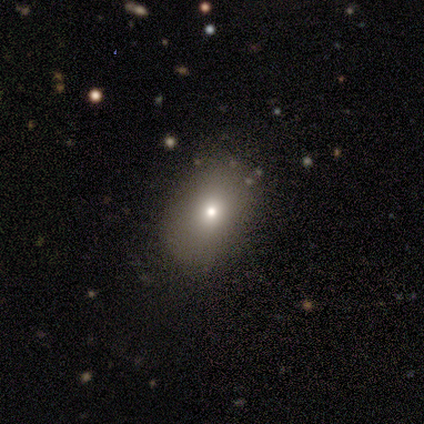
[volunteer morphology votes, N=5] Smooth or featured: smooth — 60% (featured or disk — 20%)
How rounded: in between — 67% (round — 33%)
Merging: none — 100%